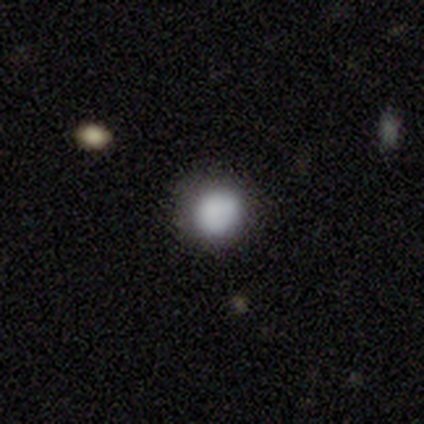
This is clearly a smooth galaxy (89%). How rounded: clearly round (88%). Merging: clearly none (81%).